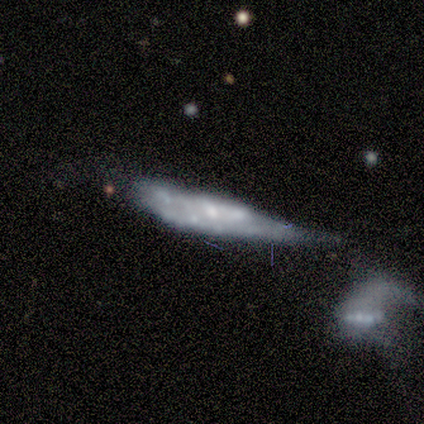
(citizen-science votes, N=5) Smooth or featured? featured or disk (60%)
Edge-on disk? no (67%)
Bar? no (100%)
Spiral arms? no (100%)
Bulge size? none (100%)
Merging? major disturbance (40%)